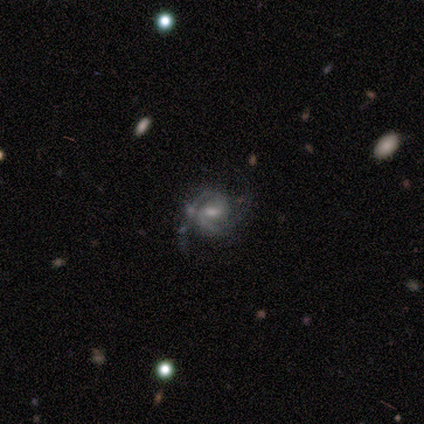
Overall: featured or disk (100%). Edge-on disk: no (100%). Bar: weak (100%). Spiral arms: yes (100%). Spiral arm count: 2 (80%). Spiral winding: medium (60%; tight 20%). Bulge size: small (40%; large 20%). Merging: none (60%; minor disturbance 40%).